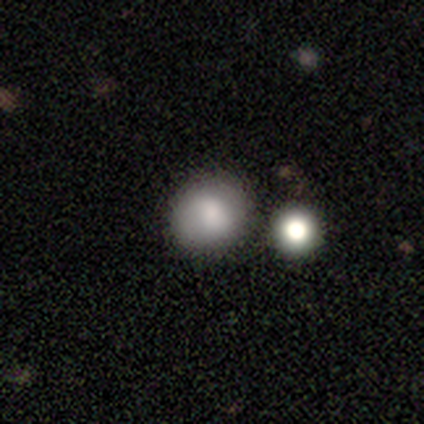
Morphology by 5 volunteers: Smooth or featured? 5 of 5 (100%) said smooth. How rounded? 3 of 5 (60%) said round. Merging? 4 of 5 (80%) said none.